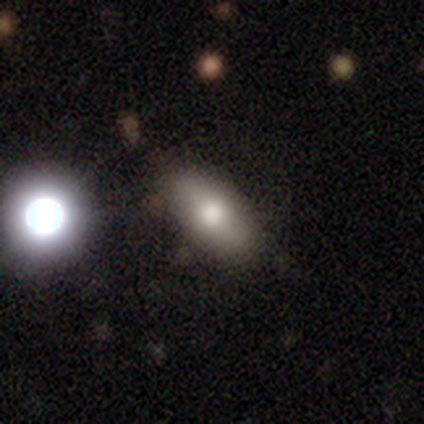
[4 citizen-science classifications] A smooth galaxy with no disk features (75%) that is cigar-shaped (67%).

Vote fractions:
- Smooth or featured? smooth: 75% / featured or disk: 25% / star or artifact: 0%
- How rounded? cigar-shaped: 67% / in between: 33% / round: 0%
- Merging? none: 100% / minor disturbance: 0% / major disturbance: 0% / merger: 0%